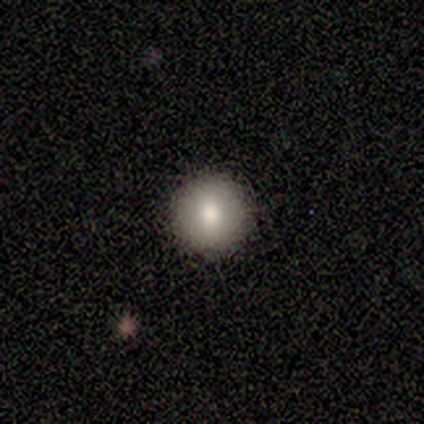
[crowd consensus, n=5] A smooth galaxy with no disk features (80%) that is round (100%).

Vote fractions:
- Smooth or featured? smooth: 80% / star or artifact: 20% / featured or disk: 0%
- How rounded? round: 100% / in between: 0% / cigar-shaped: 0%
- Merging? none: 100% / minor disturbance: 0% / major disturbance: 0% / merger: 0%